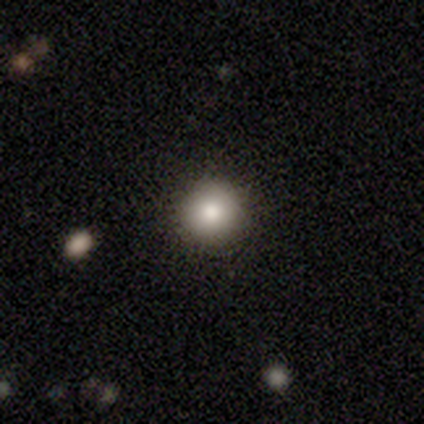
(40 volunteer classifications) Q: Smooth or featured?
A: smooth (88%); runner-up: featured or disk (10%)
Q: How rounded?
A: round (94%); runner-up: in between (6%)
Q: Merging?
A: none (95%); runner-up: minor disturbance (3%)